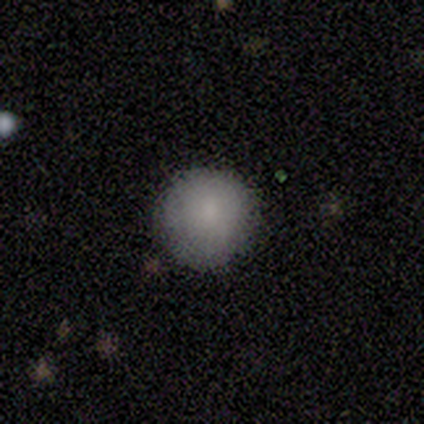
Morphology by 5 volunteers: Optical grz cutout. It shows a smooth galaxy with no disk features (100%) that is round (80%). Merging: none (80%).